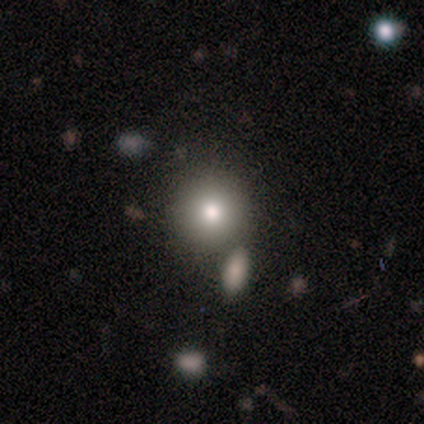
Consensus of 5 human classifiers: A smooth galaxy with no disk features (80%) that is round (100%).

Vote fractions:
- Smooth or featured? smooth: 80% / featured or disk: 20% / star or artifact: 0%
- How rounded? round: 100% / in between: 0% / cigar-shaped: 0%
- Merging? none: 80% / merger: 20% / minor disturbance: 0% / major disturbance: 0%